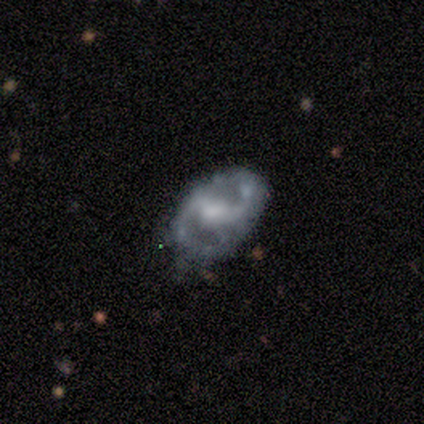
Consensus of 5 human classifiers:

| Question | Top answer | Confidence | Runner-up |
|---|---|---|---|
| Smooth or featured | featured or disk | 100% | — |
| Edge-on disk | no | 100% | — |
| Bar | weak | 60% | strong (20%) |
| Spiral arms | yes | 60% | no (40%) |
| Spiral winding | medium | 67% | loose (33%) |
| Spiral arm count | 2 | 100% | — |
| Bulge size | small | 40% | tied: none (40%) |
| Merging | none | 60% | minor disturbance (20%) |